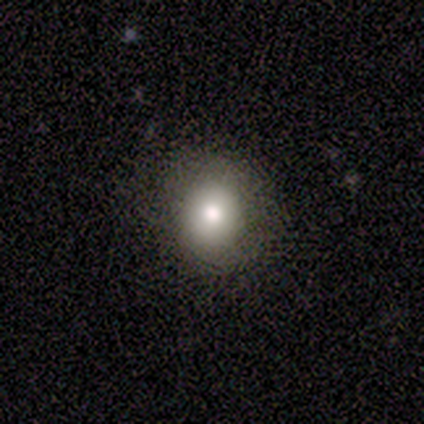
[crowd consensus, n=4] Volunteers were most divided on "smooth or featured": smooth: 75%, featured or disk: 25%, star or artifact: 0%. More confident: how rounded — round (100%); merging — none (75%).